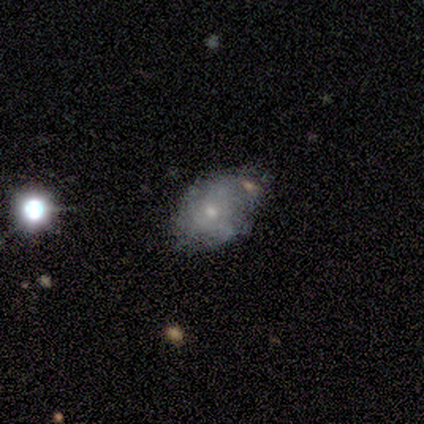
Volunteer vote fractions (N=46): This appears to be a smooth galaxy with no disk features (43%) that is in between round and cigar-shaped (90%). Merging: none (44%).